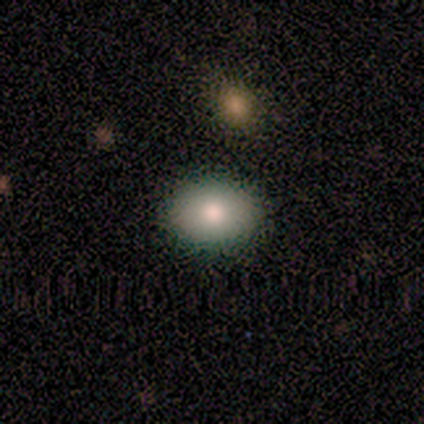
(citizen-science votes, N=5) smooth-or-featured: smooth: 40% (tied) | star or artifact: 40% (tied) | featured or disk: 20%
  how-rounded: in between: 100% | round: 0% | cigar-shaped: 0%
  merging: none: 100% | minor disturbance: 0% | major disturbance: 0% | merger: 0%